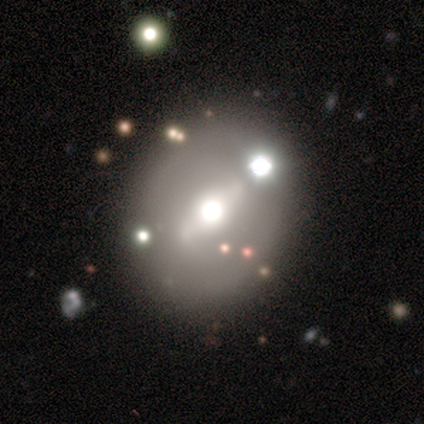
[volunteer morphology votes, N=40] Q: Smooth or featured?
A: featured or disk (45%); runner-up: smooth (35%)
Q: Edge-on disk?
A: no (67%); runner-up: yes (33%)
Q: Bar?
A: weak (83%); runner-up: strong (8%)
Q: Spiral arms?
A: no (75%); runner-up: yes (25%)
Q: Bulge size?
A: moderate (83%); runner-up: dominant (8%)
Q: Merging?
A: none (62%); runner-up: minor disturbance (19%)